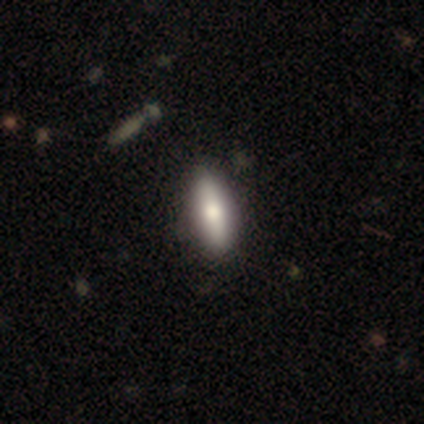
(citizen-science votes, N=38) Smooth or featured? 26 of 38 (68%) said smooth. How rounded? 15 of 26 (58%) said in between. Merging? 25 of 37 (68%) said none.